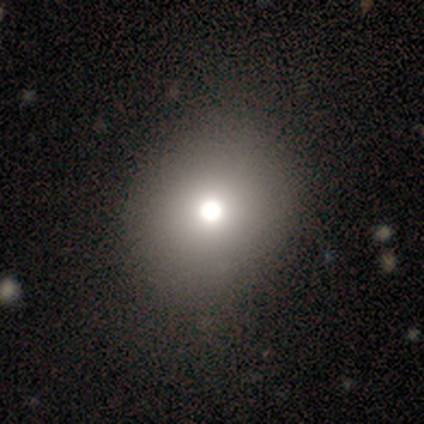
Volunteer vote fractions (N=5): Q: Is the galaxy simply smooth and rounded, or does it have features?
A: smooth — 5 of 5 (100%).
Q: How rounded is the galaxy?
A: round — 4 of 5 (80%).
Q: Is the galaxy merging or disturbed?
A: none — 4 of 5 (80%).